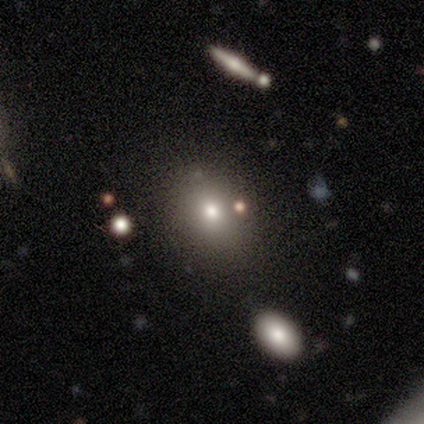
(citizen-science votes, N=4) smooth_or_featured: star or artifact (p=0.50) [alt: smooth p=0.25]